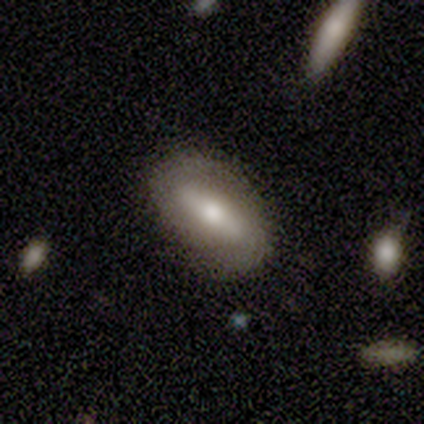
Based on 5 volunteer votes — This is clearly a featured or disk galaxy (80%). It is likely not viewed edge-on (75%). Bar: clearly strong (100%). Spiral arm pattern: likely yes (67%). Spiral arm count: clearly 2 (100%). Spiral winding: clearly medium (100%). Central bulge: clearly moderate (100%). Merging: clearly none (80%).